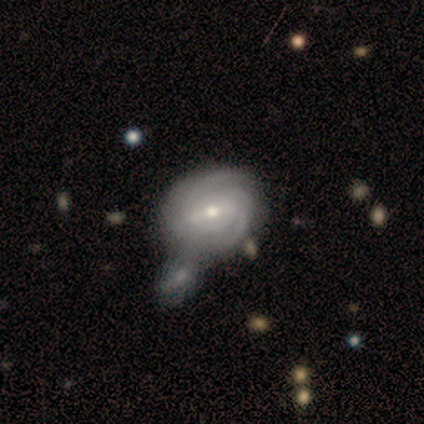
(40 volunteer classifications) Volunteers were most divided on "spiral arm count" (2-way tie): 2: 45%, can't tell: 45%, 3: 8%, more than 4: 3%, 1: 0%, 4: 0%. More confident: smooth or featured — featured or disk (100%); edge-on disk — no (100%); spiral arms — yes (95%); spiral winding — tight (76%); merging — merger (72%); bar — weak (60%); bulge size — moderate (57%).